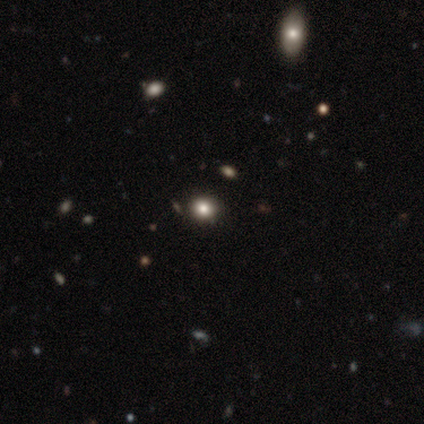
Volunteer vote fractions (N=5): Smooth or featured: smooth — 80% (featured or disk — 20%)
How rounded: round — 100%
Merging: none — 80% (minor disturbance — 20%)